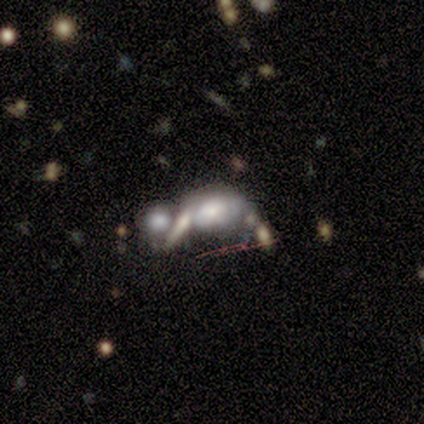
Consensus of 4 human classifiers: This appears to be a smooth galaxy with no disk features (50%, tied with featured or disk) that is round (50%, tied with in between). Merging: merger (100%).